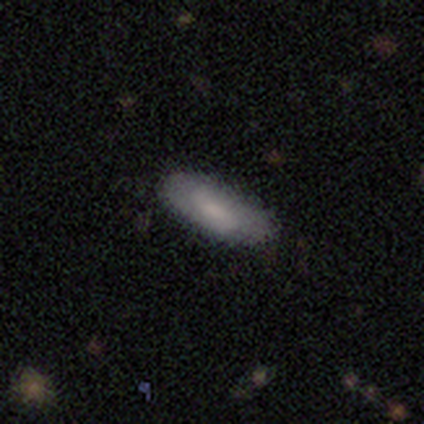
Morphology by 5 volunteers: smooth-or-featured: smooth: 80% | featured or disk: 20% | star or artifact: 0%
  how-rounded: in between: 100% | round: 0% | cigar-shaped: 0%
  merging: none: 100% | minor disturbance: 0% | major disturbance: 0% | merger: 0%